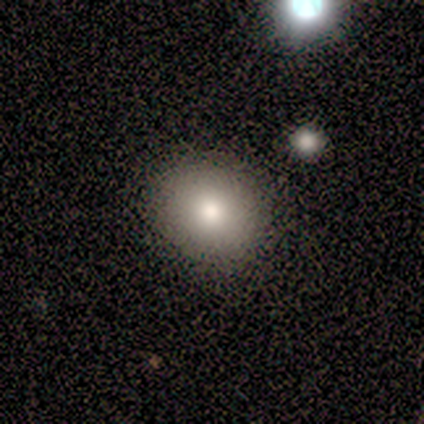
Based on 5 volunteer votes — smooth-or-featured: smooth: 80% | featured or disk: 20% | star or artifact: 0%
  how-rounded: round: 75% | cigar-shaped: 25% | in between: 0%
  merging: none: 80% | merger: 20% | minor disturbance: 0% | major disturbance: 0%